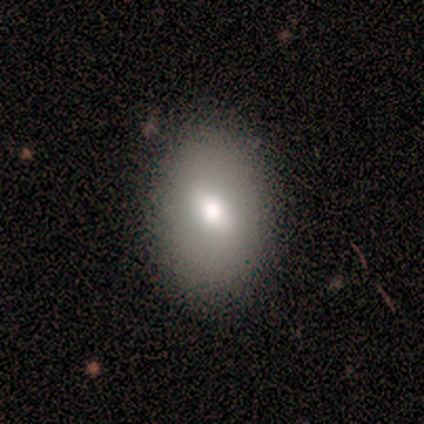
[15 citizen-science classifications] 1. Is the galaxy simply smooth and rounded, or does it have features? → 87% smooth, 7% featured or disk, 7% star or artifact.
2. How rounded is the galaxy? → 85% in between, 15% round, 0% cigar-shaped.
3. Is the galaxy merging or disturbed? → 93% none, 7% minor disturbance, 0% major disturbance, 0% merger.